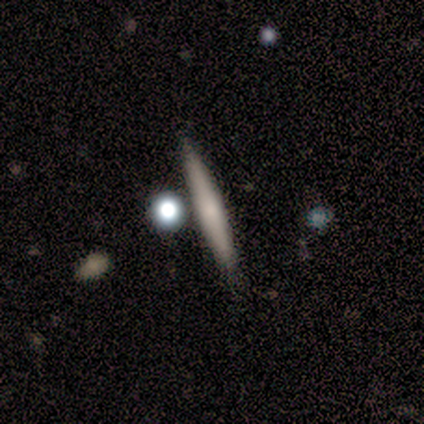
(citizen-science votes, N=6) smooth 50% (tied), featured or disk 50% (tied), star or artifact 0%. Down the decision tree: how rounded — cigar-shaped (100%); merging — none (67%).